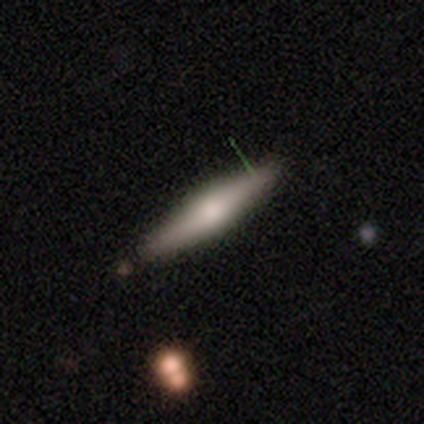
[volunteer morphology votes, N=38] Volunteers were most divided on "smooth or featured": smooth: 47%, featured or disk: 39%, star or artifact: 13%. More confident: merging — none (85%); how rounded — cigar-shaped (78%).